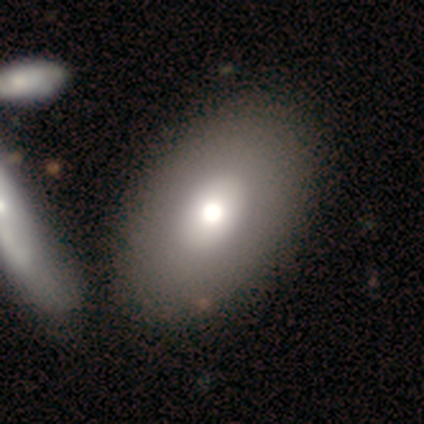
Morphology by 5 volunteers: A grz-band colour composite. It shows a smooth galaxy with no disk features (40%, tied with featured or disk) that is in between round and cigar-shaped (100%). Merging: none (75%).